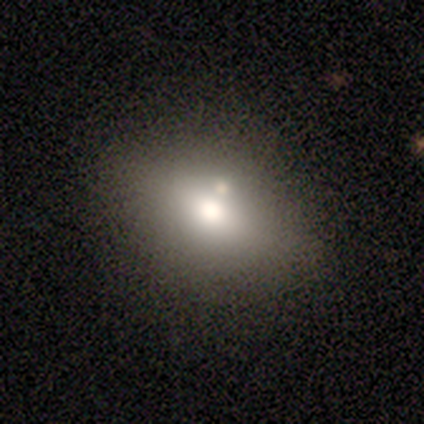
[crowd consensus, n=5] This is likely a smooth galaxy (60%). How rounded: clearly in between (100%). Merging: possibly none (50%, tied with merger).